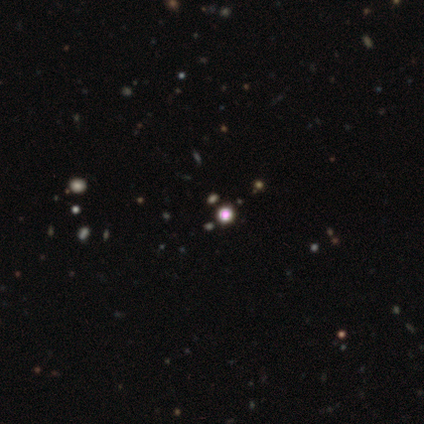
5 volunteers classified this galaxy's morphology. star or artifact 60%, smooth 40%, featured or disk 0%.